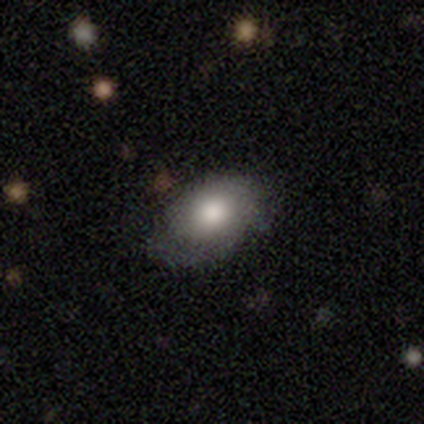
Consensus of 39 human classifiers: smooth-or-featured: smooth: 67% | featured or disk: 26% | star or artifact: 8%
  how-rounded: in between: 77% | round: 23% | cigar-shaped: 0%
  merging: none: 56% | minor disturbance: 39% | major disturbance: 6% | merger: 0%